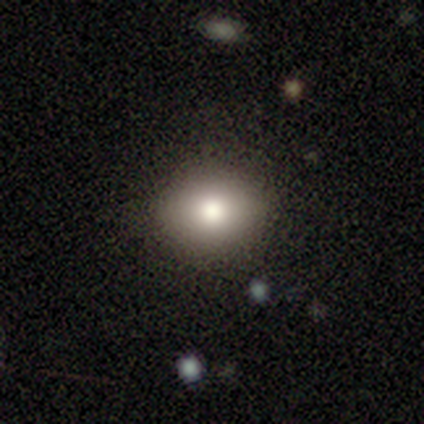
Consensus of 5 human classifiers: This appears to be a smooth galaxy with no disk features (80%) that is round (50%, tied with in between). Merging: none (100%).